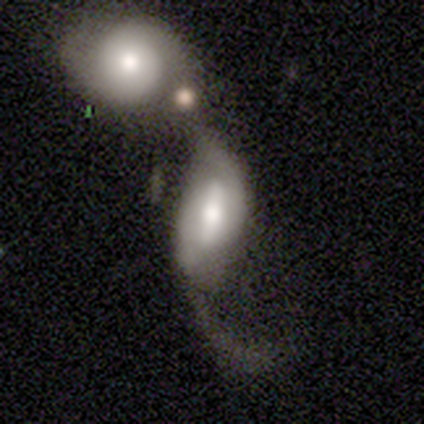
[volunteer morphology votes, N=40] This appears to be a featured or disk galaxy (68%) with a strong bar (54%), 2 (77%) loose (59%) spiral arms (92%) and a moderate central bulge (71%). Merging: merger (74%).